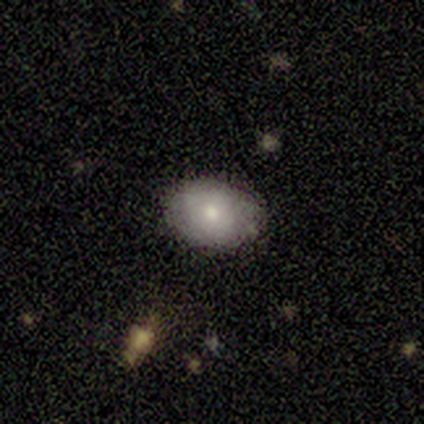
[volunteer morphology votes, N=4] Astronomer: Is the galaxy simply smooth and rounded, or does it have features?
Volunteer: smooth — 75%.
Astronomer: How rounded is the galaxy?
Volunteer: in between — 100%.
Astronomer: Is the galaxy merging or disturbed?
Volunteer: none — 75%.